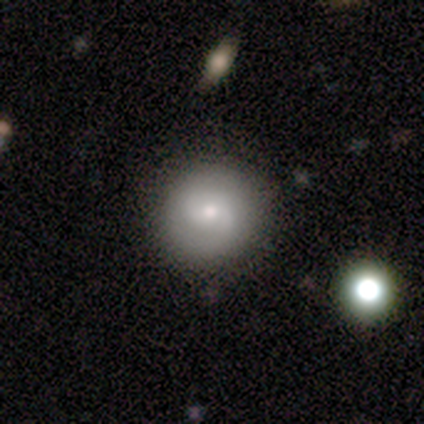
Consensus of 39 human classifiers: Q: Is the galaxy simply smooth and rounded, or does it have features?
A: featured or disk — 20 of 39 (51%).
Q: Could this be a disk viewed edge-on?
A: no — 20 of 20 (100%).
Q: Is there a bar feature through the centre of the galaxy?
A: no — 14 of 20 (70%).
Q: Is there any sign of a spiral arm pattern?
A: yes — 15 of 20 (75%).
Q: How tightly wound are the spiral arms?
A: tight — 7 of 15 (47%).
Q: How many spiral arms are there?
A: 2 — 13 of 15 (87%).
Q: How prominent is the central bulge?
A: small — 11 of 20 (55%).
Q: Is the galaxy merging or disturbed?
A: none — 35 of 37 (95%).